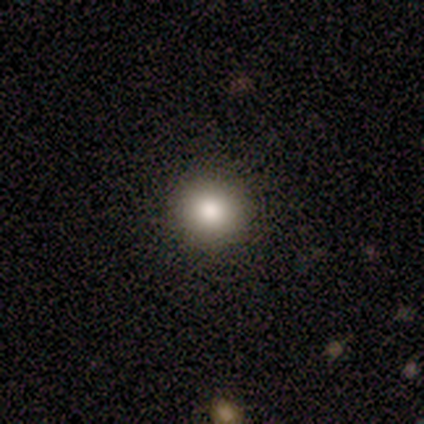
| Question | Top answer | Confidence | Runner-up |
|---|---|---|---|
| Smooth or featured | smooth | 88% | featured or disk (8%) |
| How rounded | round | 97% | in between (3%) |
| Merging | none | 89% | minor disturbance (8%) |